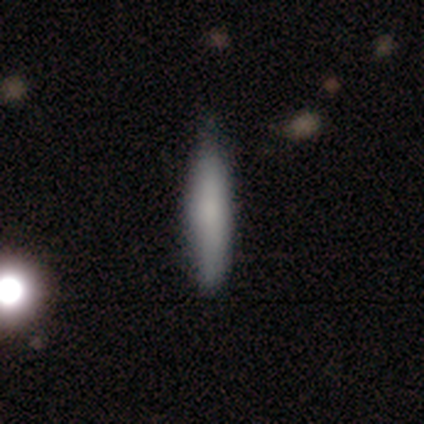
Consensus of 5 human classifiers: This is clearly a smooth galaxy (80%). How rounded: clearly cigar-shaped (100%). Merging: likely none (60%).